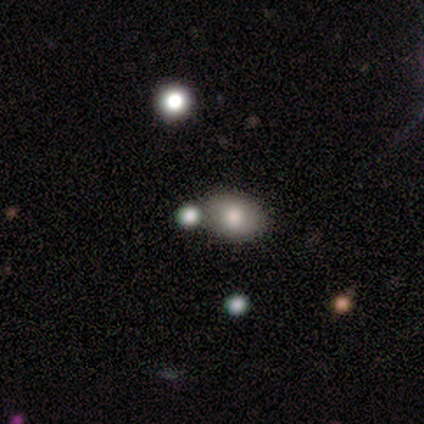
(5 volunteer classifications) Volunteers were most divided on "merging": none: 75%, minor disturbance: 25%, major disturbance: 0%, merger: 0%. More confident: how rounded — in between (100%); smooth or featured — smooth (80%).